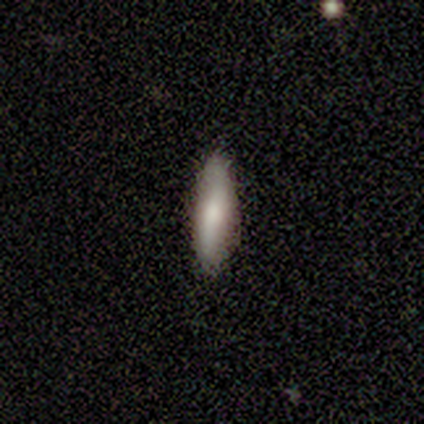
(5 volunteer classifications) Smooth or featured? 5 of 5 (100%) said smooth. How rounded? 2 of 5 (40%, tied with cigar-shaped) said in between. Merging? 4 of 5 (80%) said none.